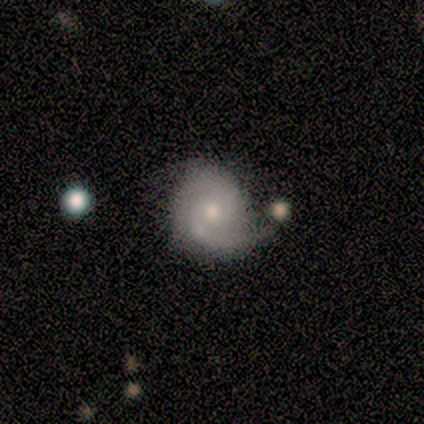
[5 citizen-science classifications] A featured or disk galaxy (80%) with no bar (75%), 2 (100%) tight (75%) spiral arms (100%) and a small central bulge (100%).

Vote fractions:
- Smooth or featured? featured or disk: 80% / smooth: 20% / star or artifact: 0%
- Edge-on disk? no: 100% / yes: 0%
- Bar? no: 75% / strong: 25% / weak: 0%
- Spiral arms? yes: 100% / no: 0%
- Spiral winding? tight: 75% / medium: 25% / loose: 0%
- Spiral arm count? 2: 100% / 1: 0% / 3: 0% / 4: 0% / more than 4: 0% / can't tell: 0%
- Bulge size? small: 100% / dominant: 0% / large: 0% / moderate: 0% / none: 0%
- Merging? none: 40% (tied) / minor disturbance: 40% (tied) / major disturbance: 20% / merger: 0%